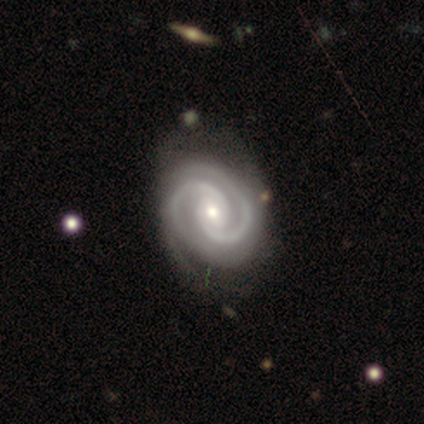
A featured or disk galaxy (96%) with no bar (54%), 2 (91%) tight (55%) spiral arms (100%) and a moderate central bulge (55%). Merging: none (44%).